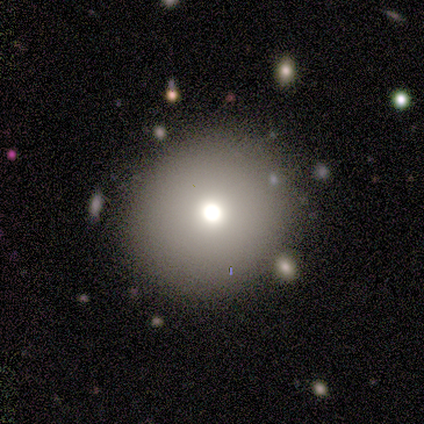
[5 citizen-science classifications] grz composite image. It shows a smooth galaxy with no disk features (60%) that is round (67%). Merging: none (50%, tied with minor disturbance).